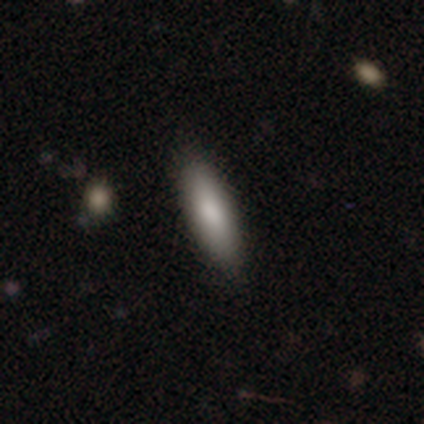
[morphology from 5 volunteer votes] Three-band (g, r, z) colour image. It shows a smooth galaxy with no disk features (100%) that is in between round and cigar-shaped (80%). Merging: none (80%).